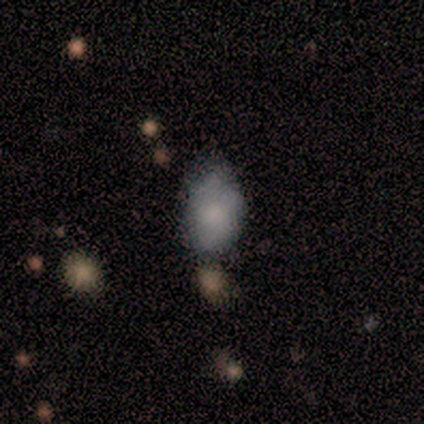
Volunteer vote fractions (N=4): Smooth or featured? 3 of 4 (75%) said smooth. How rounded? 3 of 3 (100%) said in between. Merging? 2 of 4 (50%, tied with minor disturbance) said none.